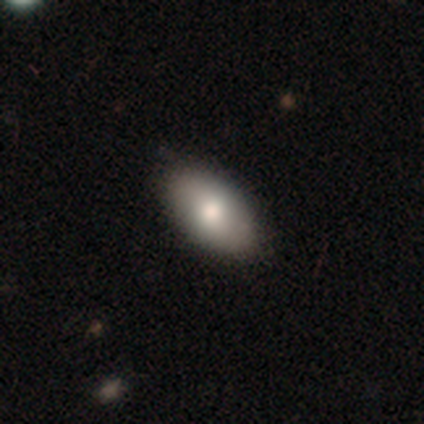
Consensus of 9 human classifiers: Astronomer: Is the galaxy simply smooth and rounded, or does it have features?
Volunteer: smooth — 67%.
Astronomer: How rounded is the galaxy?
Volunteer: in between — 100%.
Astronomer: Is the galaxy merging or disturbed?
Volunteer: none — 100%.